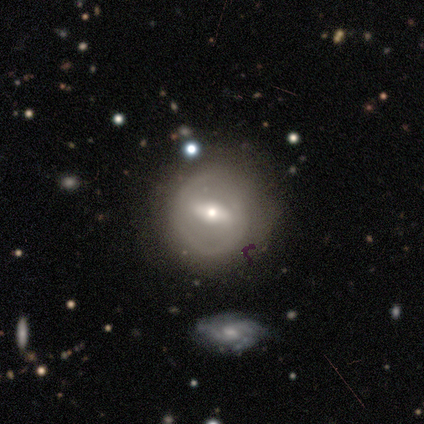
Morphology: type=featured or disk (69%); edge-on=no (94%); bar=strong (66%); spiral arms=no (56%); bulge=moderate (56%); merging=none (70%).